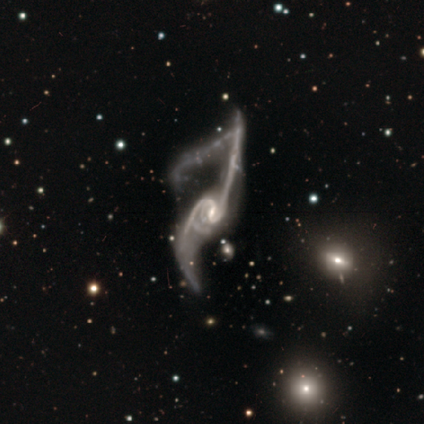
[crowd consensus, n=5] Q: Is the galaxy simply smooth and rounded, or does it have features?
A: featured or disk — 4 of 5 (80%).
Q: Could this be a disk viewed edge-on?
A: no — 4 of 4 (100%).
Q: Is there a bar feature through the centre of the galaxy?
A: strong — 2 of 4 (50%, tied with no).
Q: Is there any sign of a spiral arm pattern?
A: yes — 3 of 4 (75%).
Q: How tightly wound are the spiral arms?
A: loose — 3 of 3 (100%).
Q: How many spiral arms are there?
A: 2 — 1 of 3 (33%, tied with more than 4 and can't tell).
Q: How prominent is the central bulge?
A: moderate — 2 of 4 (50%).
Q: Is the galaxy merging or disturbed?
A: major disturbance — 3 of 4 (75%).